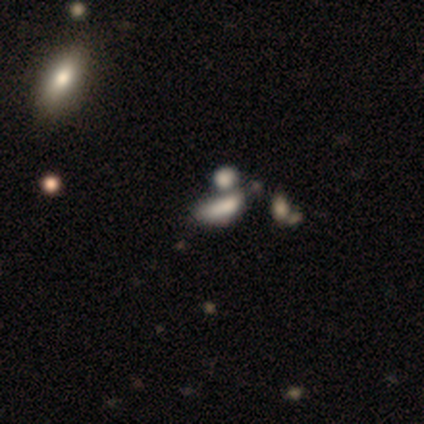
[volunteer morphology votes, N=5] Smooth or featured: smooth — 40% (tied with featured or disk — 40%)
How rounded: in between — 50% (tied with cigar-shaped — 50%)
Merging: merger — 50% (none — 25%)